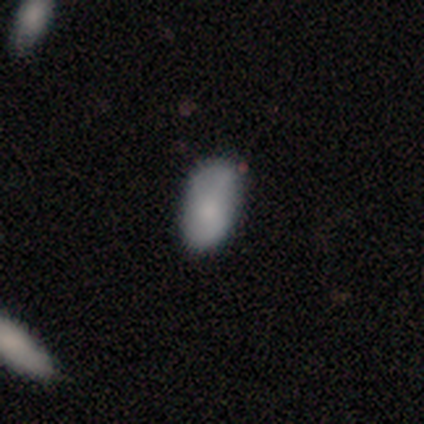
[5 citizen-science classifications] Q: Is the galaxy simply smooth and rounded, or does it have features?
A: smooth — 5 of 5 (100%).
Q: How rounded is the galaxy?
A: in between — 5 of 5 (100%).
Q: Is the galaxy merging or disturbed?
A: none — 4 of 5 (80%).